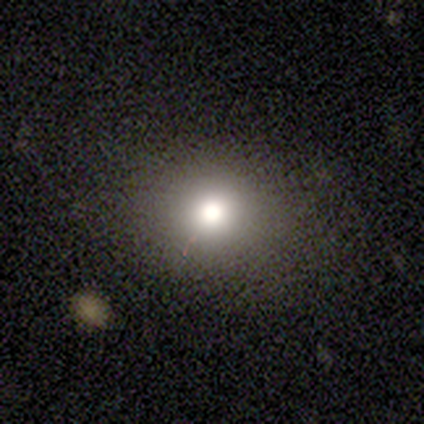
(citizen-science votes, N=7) smooth_or_featured: smooth (p=1.00)
how_rounded: in between (p=0.57) [alt: round p=0.43]
merging: none (p=0.86) [alt: minor disturbance p=0.14]